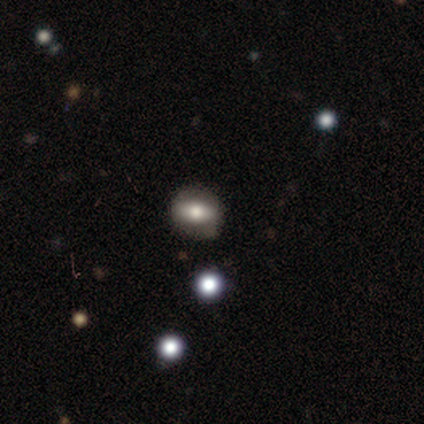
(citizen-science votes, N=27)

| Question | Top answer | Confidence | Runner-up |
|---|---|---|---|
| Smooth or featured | smooth | 52% | featured or disk (26%) |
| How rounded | round | 43% | tied: in between (43%) |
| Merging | none | 76% | minor disturbance (24%) |